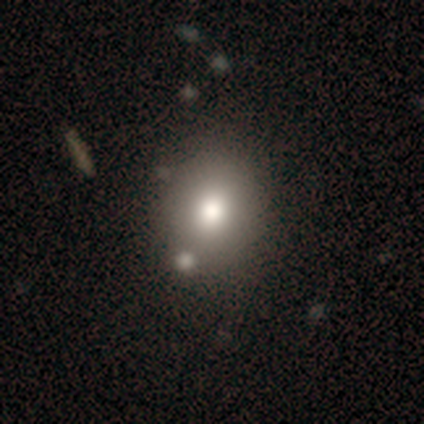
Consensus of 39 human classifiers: Smooth or featured?
  - smooth: 92% *
  - star or artifact: 5%
  - featured or disk: 3%
How rounded?
  - round: 61% *
  - in between: 39%
  - cigar-shaped: 0%
Merging?
  - none: 62% *
  - merger: 16%
  - minor disturbance: 11%
  - major disturbance: 0%